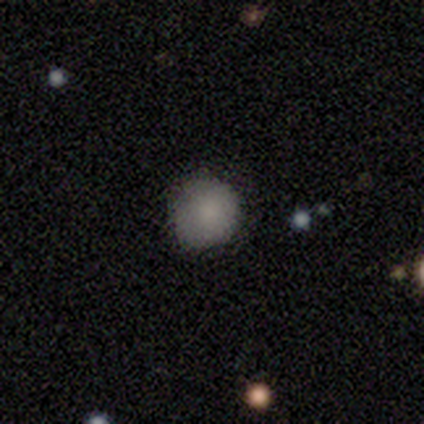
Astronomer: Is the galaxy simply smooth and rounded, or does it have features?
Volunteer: smooth — 89%.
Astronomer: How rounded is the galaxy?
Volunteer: round — 88%.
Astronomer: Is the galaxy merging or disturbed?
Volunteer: none — 100%.